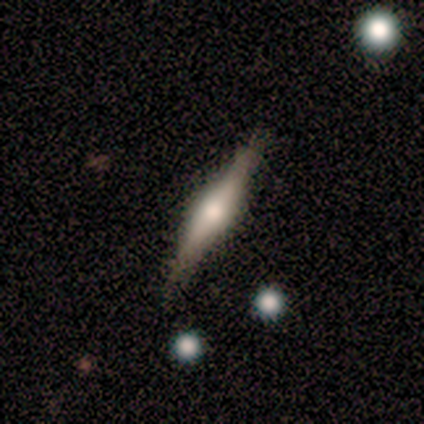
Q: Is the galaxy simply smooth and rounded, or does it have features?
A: featured or disk — 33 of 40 (82%).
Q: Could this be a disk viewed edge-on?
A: yes — 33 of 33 (100%).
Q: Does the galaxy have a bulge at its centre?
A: rounded — 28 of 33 (85%).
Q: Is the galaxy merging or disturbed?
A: none — 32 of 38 (84%).